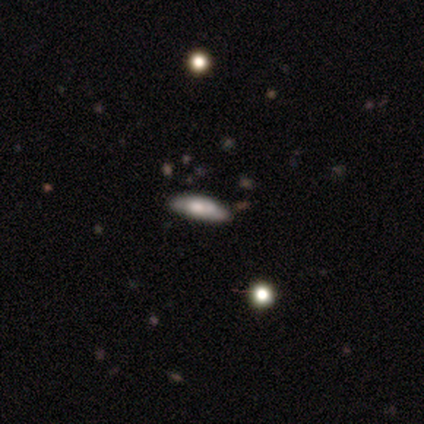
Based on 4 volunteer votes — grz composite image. It shows a smooth galaxy with no disk features (75%) that is in between round and cigar-shaped (67%). Merging: none (75%).